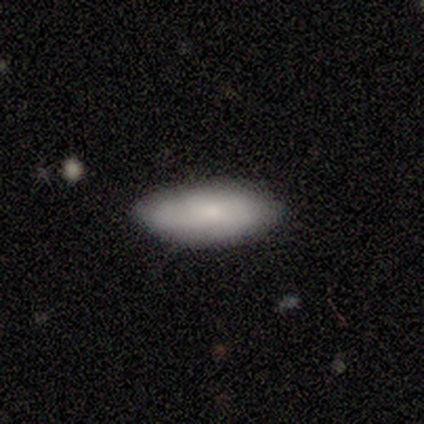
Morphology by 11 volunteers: smooth-or-featured: smooth: 82% | featured or disk: 18% | star or artifact: 0%
  how-rounded: in between: 67% | cigar-shaped: 33% | round: 0%
  merging: none: 64% | minor disturbance: 36% | major disturbance: 0% | merger: 0%